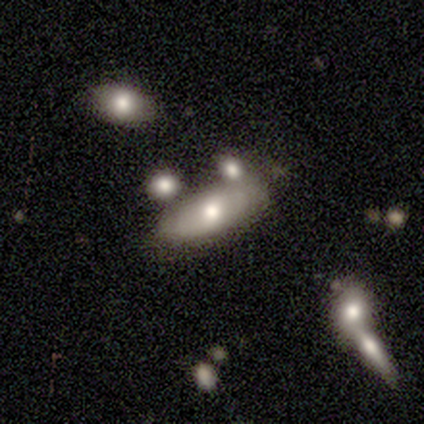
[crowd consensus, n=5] Volunteers were most divided on "merging" (2-way tie): none: 50%, merger: 50%, minor disturbance: 0%, major disturbance: 0%. More confident: edge-on bulge — rounded (100%); edge-on disk — yes (67%); smooth or featured — featured or disk (60%).